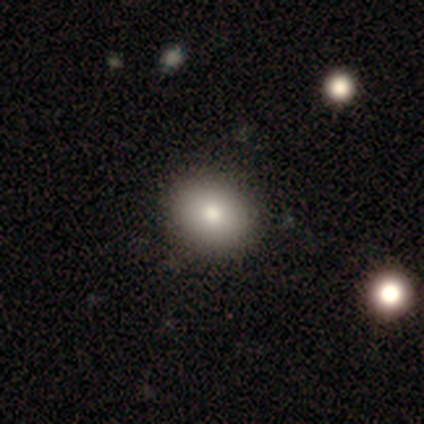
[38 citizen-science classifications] Q: Smooth or featured?
A: smooth (87%); runner-up: featured or disk (11%)
Q: How rounded?
A: round (48%); tied with: in between (48%)
Q: Merging?
A: none (73%); runner-up: major disturbance (3%)